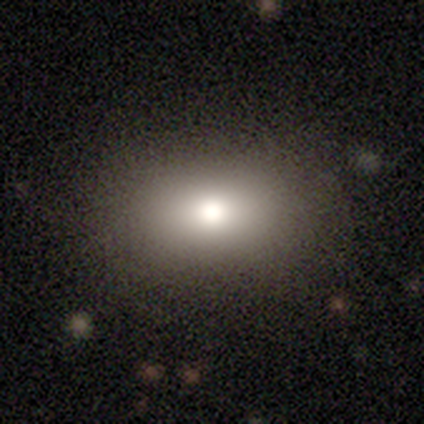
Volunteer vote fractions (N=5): Q: Smooth or featured?
A: smooth (60%); runner-up: featured or disk (40%)
Q: How rounded?
A: in between (100%)
Q: Merging?
A: none (80%); runner-up: major disturbance (20%)